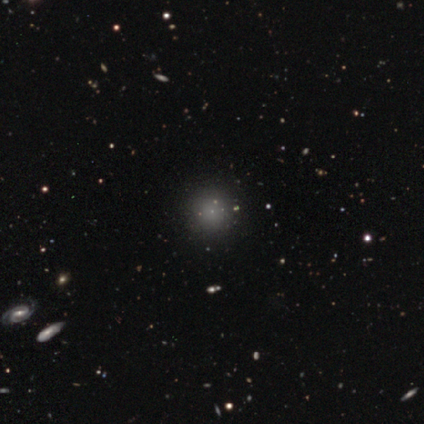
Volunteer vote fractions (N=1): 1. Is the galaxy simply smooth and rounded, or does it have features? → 100% smooth, 0% featured or disk, 0% star or artifact.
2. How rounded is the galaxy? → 100% round, 0% in between, 0% cigar-shaped.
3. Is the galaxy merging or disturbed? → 100% none, 0% minor disturbance, 0% major disturbance, 0% merger.